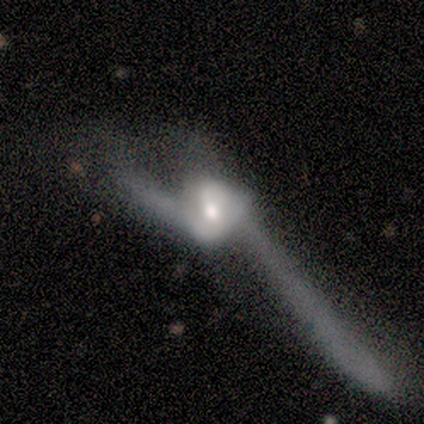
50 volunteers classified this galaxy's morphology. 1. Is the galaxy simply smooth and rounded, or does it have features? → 90% featured or disk, 8% smooth, 2% star or artifact.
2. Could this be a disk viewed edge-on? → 82% no, 18% yes.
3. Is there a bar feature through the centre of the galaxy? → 68% no, 30% weak, 3% strong.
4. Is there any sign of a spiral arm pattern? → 73% yes, 27% no.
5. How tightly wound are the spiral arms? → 81% loose, 15% medium, 4% tight.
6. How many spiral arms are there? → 85% 2, 15% can't tell, 0% 1, 0% 3, 0% 4, 0% more than 4.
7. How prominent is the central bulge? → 62% moderate, 22% small, 16% large, 0% dominant, 0% none.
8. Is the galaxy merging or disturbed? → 65% major disturbance, 18% merger, 12% none, 4% minor disturbance.